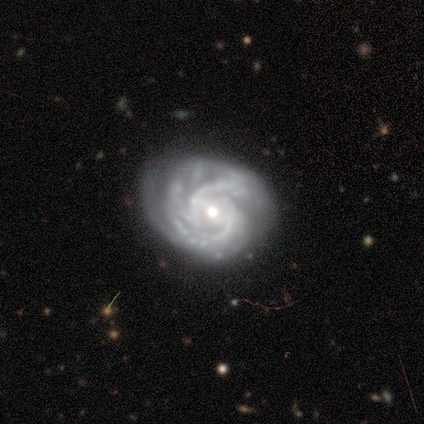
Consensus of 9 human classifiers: featured or disk 89%, star or artifact 11%, smooth 0%. Down the decision tree: edge-on disk — no (100%); bar — weak (50%); spiral arms — yes (88%); spiral arm count — 3 (29%, tied with 4); spiral winding — tight (71%); bulge size — moderate (62%); merging — none (75%).